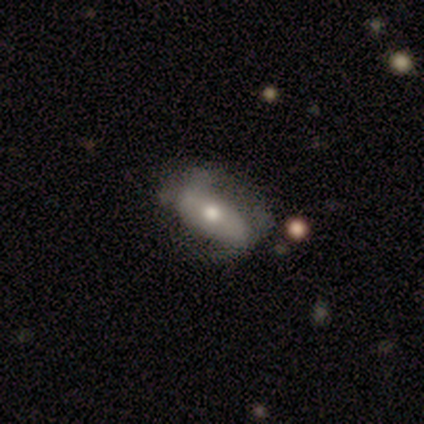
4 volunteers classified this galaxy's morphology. smooth 75%, star or artifact 25%, featured or disk 0%. Down the decision tree: how rounded — in between (100%); merging — none (33%, tied with minor disturbance and major disturbance).